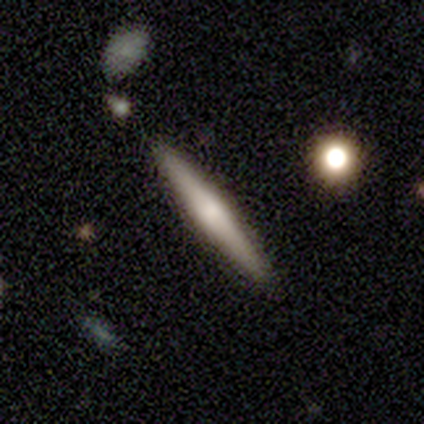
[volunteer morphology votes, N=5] Smooth or featured: featured or disk — 80% (smooth — 20%)
Edge-on disk: yes — 100%
Edge-on bulge: rounded — 100%
Merging: none — 100%